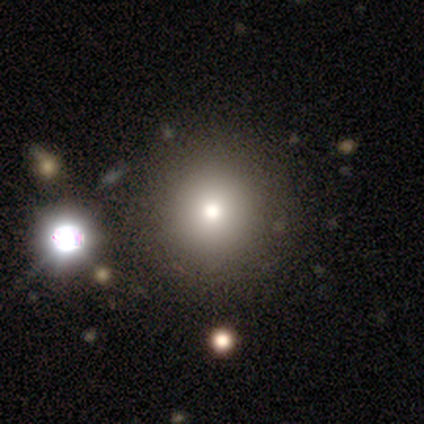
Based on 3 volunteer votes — Smooth or featured? 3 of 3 (100%) said smooth. How rounded? 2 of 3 (67%) said round. Merging? 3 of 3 (100%) said none.